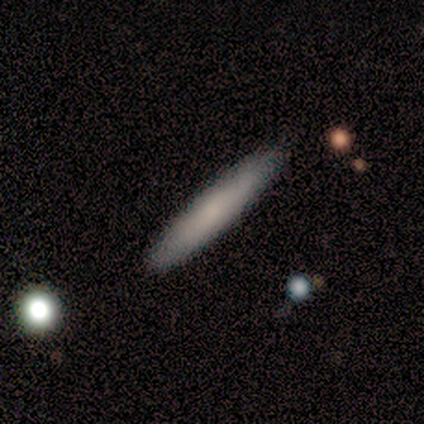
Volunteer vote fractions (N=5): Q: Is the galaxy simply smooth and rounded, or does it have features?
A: smooth — 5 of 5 (100%).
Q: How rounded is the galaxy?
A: cigar-shaped — 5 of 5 (100%).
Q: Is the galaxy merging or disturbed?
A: none — 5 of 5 (100%).